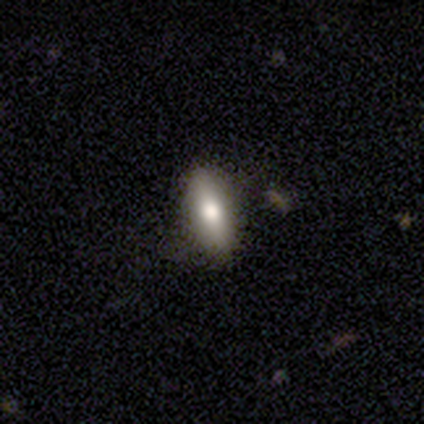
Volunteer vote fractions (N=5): This is likely a featured or disk galaxy (60%). It is clearly viewed edge-on (100%). Edge-on bulge: likely rounded (67%). Merging: clearly none (80%).